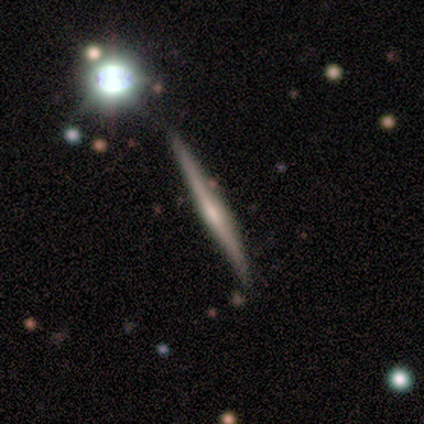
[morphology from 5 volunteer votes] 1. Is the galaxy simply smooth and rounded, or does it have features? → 80% featured or disk, 20% smooth, 0% star or artifact.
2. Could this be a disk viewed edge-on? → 100% yes, 0% no.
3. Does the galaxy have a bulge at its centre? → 50% rounded, 25% boxy, 25% none.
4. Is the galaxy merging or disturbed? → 100% none, 0% minor disturbance, 0% major disturbance, 0% merger.